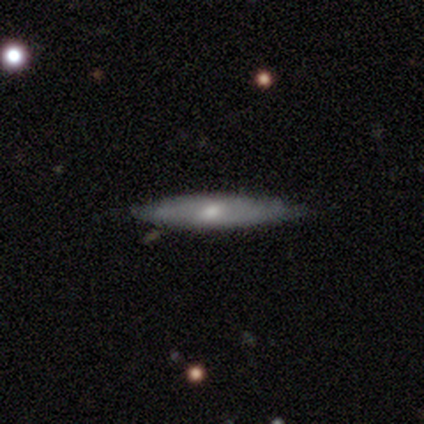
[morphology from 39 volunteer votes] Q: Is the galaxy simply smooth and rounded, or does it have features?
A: featured or disk — 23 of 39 (59%).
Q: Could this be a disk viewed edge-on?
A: yes — 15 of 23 (65%).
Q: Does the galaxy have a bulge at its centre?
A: none — 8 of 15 (53%).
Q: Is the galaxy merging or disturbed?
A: none — 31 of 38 (82%).